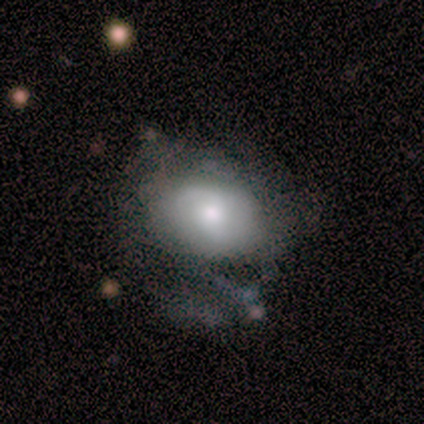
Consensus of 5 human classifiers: This appears to be a smooth galaxy with no disk features (60%) that is round (67%). Merging: none (60%).